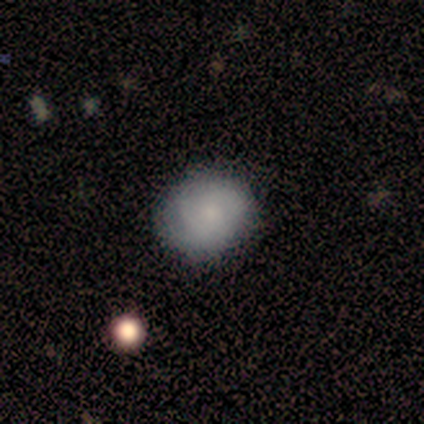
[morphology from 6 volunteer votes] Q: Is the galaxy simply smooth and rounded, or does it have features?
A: smooth — 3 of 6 (50%, tied with featured or disk).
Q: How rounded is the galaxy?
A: in between — 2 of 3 (67%).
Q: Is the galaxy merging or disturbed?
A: none — 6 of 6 (100%).